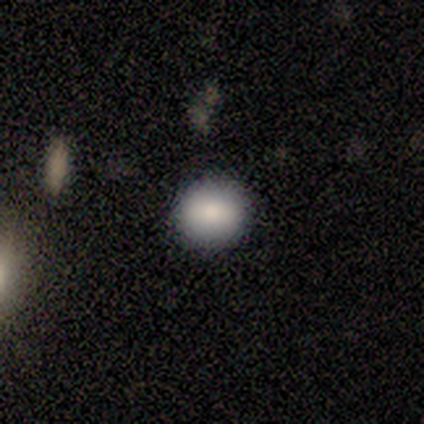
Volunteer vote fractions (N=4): smooth-or-featured: smooth: 75% | featured or disk: 25% | star or artifact: 0%
  how-rounded: round: 100% | in between: 0% | cigar-shaped: 0%
  merging: none: 75% | minor disturbance: 25% | major disturbance: 0% | merger: 0%